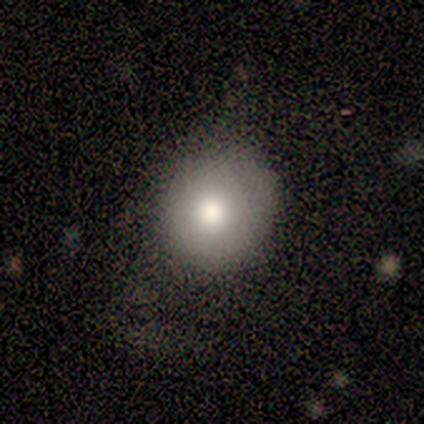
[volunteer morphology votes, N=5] Volunteers were most divided on "smooth or featured": smooth: 60%, featured or disk: 40%, star or artifact: 0%. More confident: how rounded — round (100%); merging — minor disturbance (80%).